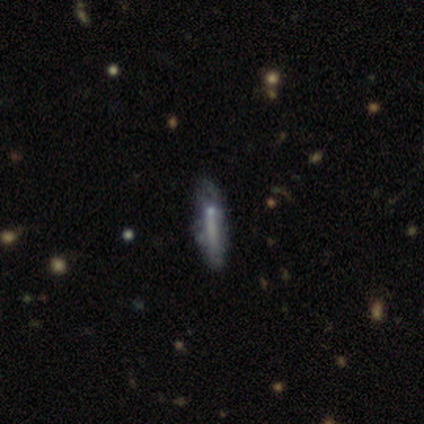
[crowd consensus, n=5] A featured or disk galaxy (60%) viewed edge-on (100%) with no central bulge (67%). Merging: minor disturbance (67%).